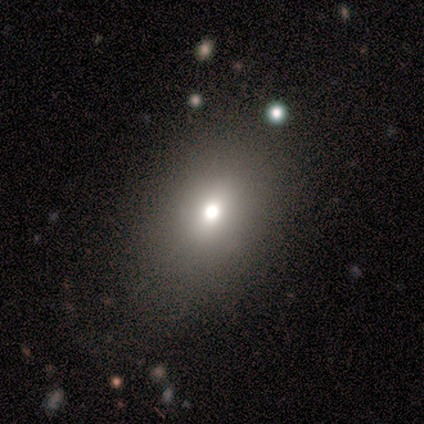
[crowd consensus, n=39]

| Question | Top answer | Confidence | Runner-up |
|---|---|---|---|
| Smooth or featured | smooth | 82% | star or artifact (10%) |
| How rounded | in between | 84% | round (16%) |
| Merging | none | 83% | major disturbance (11%) |